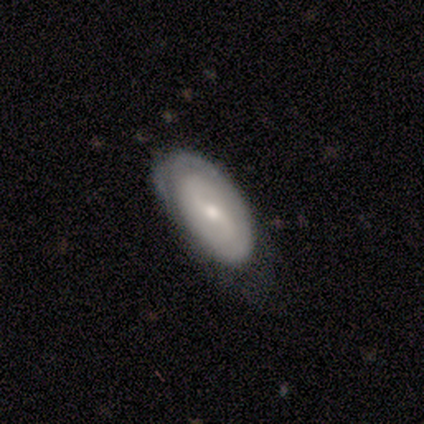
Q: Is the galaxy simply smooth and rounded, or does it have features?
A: featured or disk — 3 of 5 (60%).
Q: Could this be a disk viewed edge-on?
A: no — 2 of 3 (67%).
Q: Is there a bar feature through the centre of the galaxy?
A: weak — 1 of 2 (50%, tied with no).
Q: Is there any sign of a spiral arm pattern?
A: yes — 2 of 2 (100%).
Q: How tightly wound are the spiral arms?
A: tight — 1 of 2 (50%, tied with loose).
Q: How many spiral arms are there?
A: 2 — 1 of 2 (50%, tied with can't tell).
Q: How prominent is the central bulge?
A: small — 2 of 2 (100%).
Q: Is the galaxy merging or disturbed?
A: none — 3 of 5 (60%).